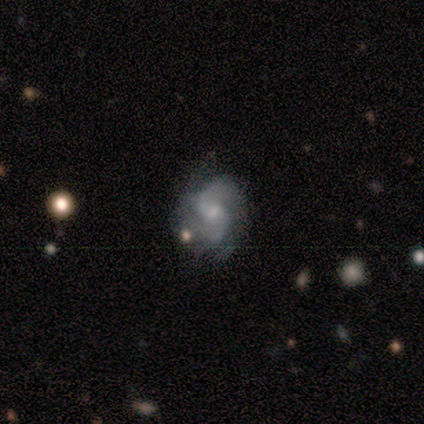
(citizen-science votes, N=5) Volunteers were most divided on "spiral winding" (3-way tie): tight: 33%, medium: 33%, loose: 33%; "merging" (2-way tie): none: 50%, minor disturbance: 50%, major disturbance: 0%, merger: 0%. More confident: edge-on disk — no (100%); spiral arms — yes (100%); bar — weak (67%); spiral arm count — 2 (67%); bulge size — moderate (67%); smooth or featured — featured or disk (60%).